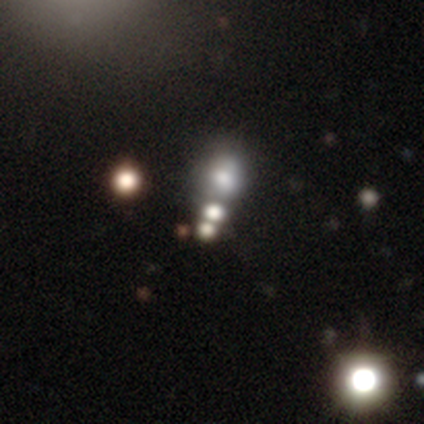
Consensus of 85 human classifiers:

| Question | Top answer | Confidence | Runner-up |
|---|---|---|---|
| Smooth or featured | smooth | 41% | star or artifact (40%) |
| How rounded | round | 83% | in between (17%) |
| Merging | none | 51% | merger (35%) |